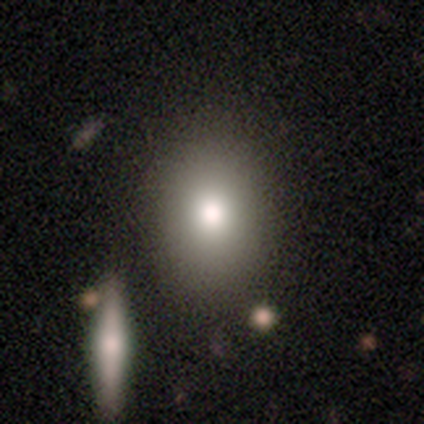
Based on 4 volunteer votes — Smooth or featured?
  - smooth: 75% *
  - star or artifact: 25%
  - featured or disk: 0%
How rounded?
  - in between: 100% *
  - round: 0%
  - cigar-shaped: 0%
Merging?
  - none: 67% *
  - minor disturbance: 33%
  - major disturbance: 0%
  - merger: 0%